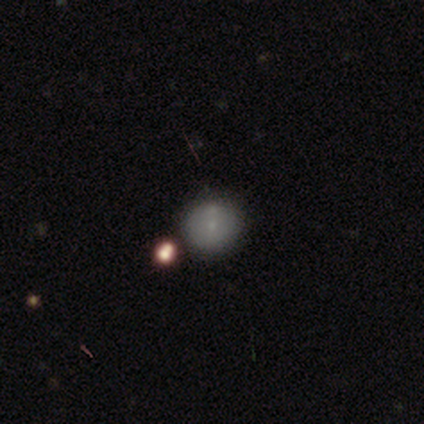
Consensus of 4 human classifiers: Smooth or featured?
  - star or artifact: 50% *
  - smooth: 25%
  - featured or disk: 25%